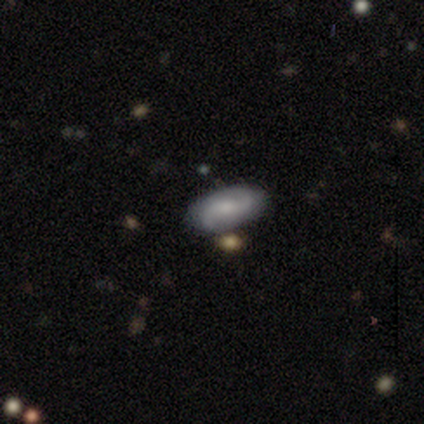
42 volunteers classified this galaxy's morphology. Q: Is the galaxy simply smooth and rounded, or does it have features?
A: featured or disk — 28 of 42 (67%).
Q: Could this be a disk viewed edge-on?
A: no — 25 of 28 (89%).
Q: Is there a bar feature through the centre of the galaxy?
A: weak — 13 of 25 (52%).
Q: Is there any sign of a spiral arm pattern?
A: yes — 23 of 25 (92%).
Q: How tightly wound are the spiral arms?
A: medium — 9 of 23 (39%).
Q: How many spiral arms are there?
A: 2 — 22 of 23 (96%).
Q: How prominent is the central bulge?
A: moderate — 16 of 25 (64%).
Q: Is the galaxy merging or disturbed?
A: none — 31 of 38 (82%).